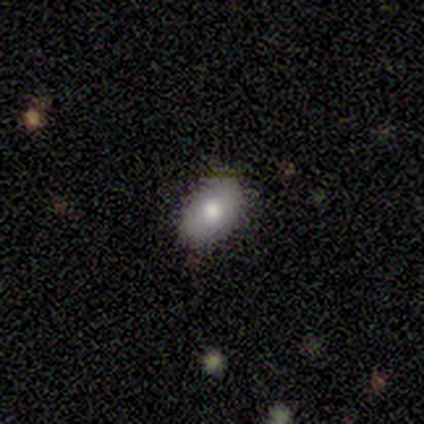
smooth 100%, featured or disk 0%, star or artifact 0%. Down the decision tree: how rounded — in between (60%); merging — none (80%).